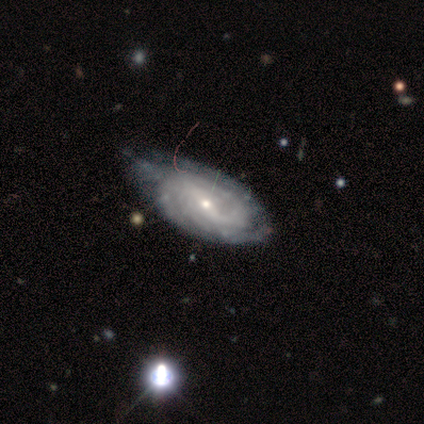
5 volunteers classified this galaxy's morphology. This is clearly a featured or disk galaxy (80%). It is possibly viewed edge-on (50%, tied with no). Edge-on bulge: possibly boxy (50%, tied with none). Merging: likely none (60%).